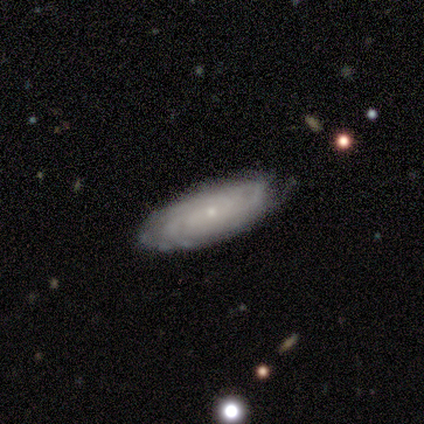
Volunteers were most divided on "merging": none: 67%, minor disturbance: 28%, major disturbance: 3%, merger: 3%. More confident: edge-on disk — no (93%); bar — no (89%); spiral arms — yes (89%); bulge size — small (86%); spiral winding — tight (80%); smooth or featured — featured or disk (77%); spiral arm count — can't tell (56%).